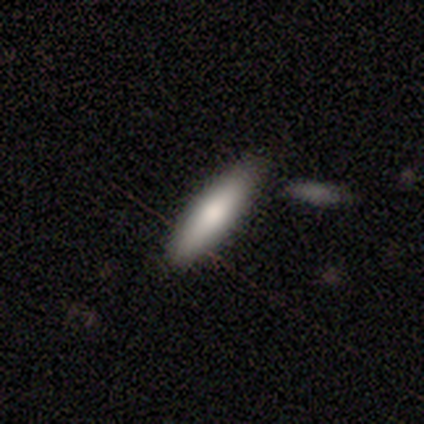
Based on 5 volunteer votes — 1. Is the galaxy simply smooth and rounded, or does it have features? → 100% smooth, 0% featured or disk, 0% star or artifact.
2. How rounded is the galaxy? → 80% cigar-shaped, 20% in between, 0% round.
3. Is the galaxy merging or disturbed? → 40% none (tied), 40% minor disturbance (tied), 20% merger, 0% major disturbance.